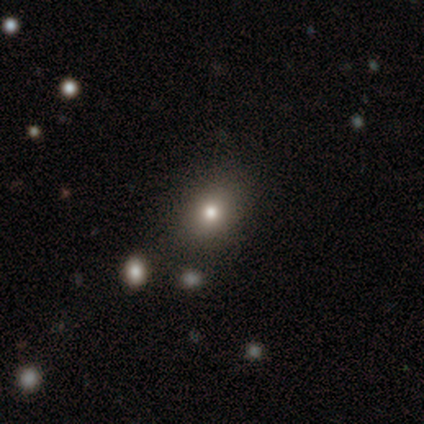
Q: Smooth or featured?
A: smooth (72%); runner-up: star or artifact (15%)
Q: How rounded?
A: round (50%); tied with: in between (50%)
Q: Merging?
A: none (82%); runner-up: minor disturbance (9%)